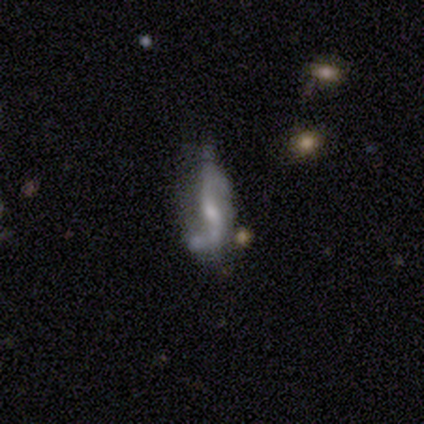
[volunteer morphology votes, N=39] Smooth or featured: featured or disk — 74% (smooth — 13%)
Edge-on disk: no — 90% (yes — 10%)
Bar: weak — 58% (no — 27%)
Spiral arms: yes — 85% (no — 15%)
Spiral winding: loose — 68% (medium — 18%)
Spiral arm count: 2 — 82% (1 — 14%)
Bulge size: small — 42% (moderate — 35%)
Merging: none — 41% (minor disturbance — 32%)